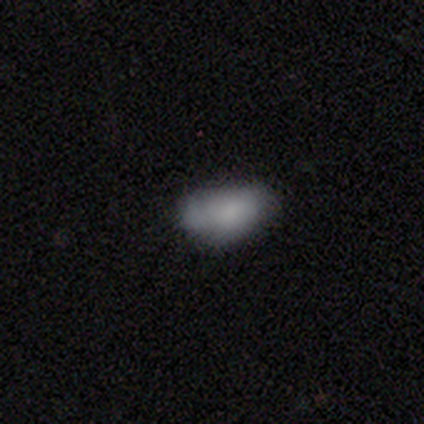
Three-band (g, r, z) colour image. It shows a smooth galaxy with no disk features (100%) that is in between round and cigar-shaped (100%). Merging: none (40%, tied with minor disturbance).